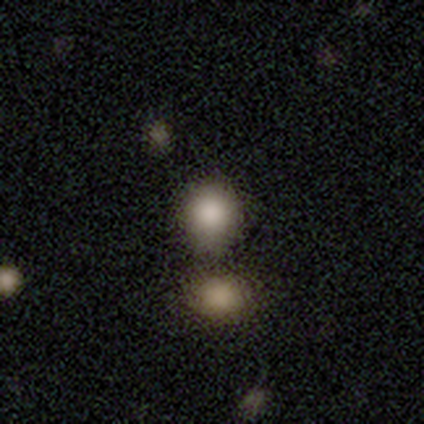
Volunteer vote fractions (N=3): Smooth or featured? 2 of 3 (67%) said smooth. How rounded? 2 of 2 (100%) said round. Merging? 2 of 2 (100%) said none.